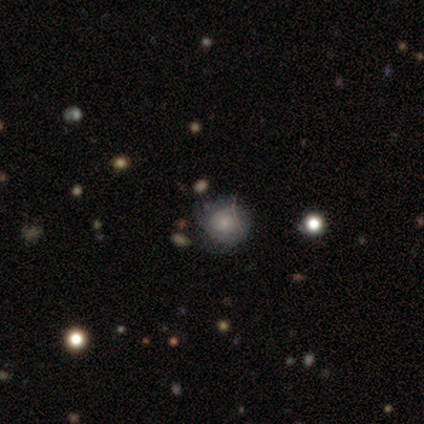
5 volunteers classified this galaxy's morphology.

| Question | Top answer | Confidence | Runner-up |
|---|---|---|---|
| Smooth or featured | smooth | 40% | tied: star or artifact (40%) |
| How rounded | round | 100% | — |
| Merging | minor disturbance | 67% | none (33%) |